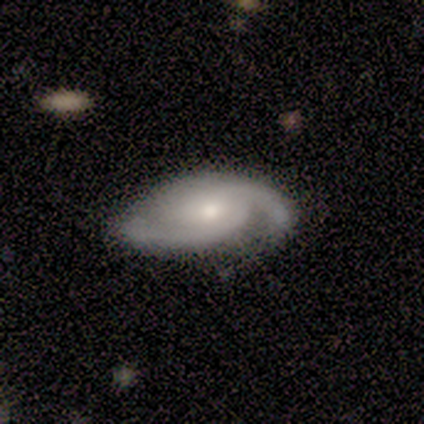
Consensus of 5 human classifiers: Smooth or featured?
  - featured or disk: 100% *
  - smooth: 0%
  - star or artifact: 0%
Edge-on disk?
  - no: 100% *
  - yes: 0%
Bar?
  - weak: 60% *
  - no: 40%
  - strong: 0%
Spiral arms?
  - yes: 100% *
  - no: 0%
Spiral winding?
  - medium: 60% *
  - tight: 20%
  - loose: 20%
Spiral arm count?
  - 2: 100% *
  - 1: 0%
  - 3: 0%
  - 4: 0%
  - more than 4: 0%
  - can't tell: 0%
Bulge size?
  - large: 60% *
  - moderate: 20%
  - small: 20%
  - dominant: 0%
  - none: 0%
Merging?
  - none: 80% *
  - minor disturbance: 20%
  - major disturbance: 0%
  - merger: 0%